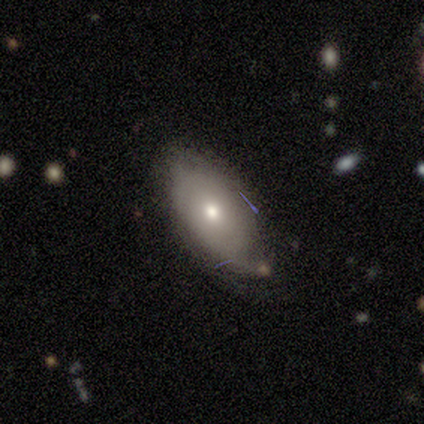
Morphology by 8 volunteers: A smooth galaxy with no disk features (75%) that is in between round and cigar-shaped (100%). Merging: none (86%).